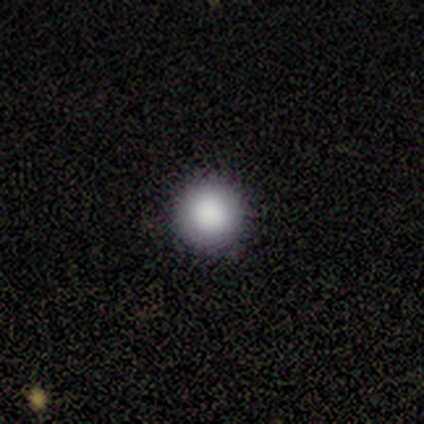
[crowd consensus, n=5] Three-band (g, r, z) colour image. It shows a smooth galaxy with no disk features (100%) that is round (100%). Merging: none (100%).